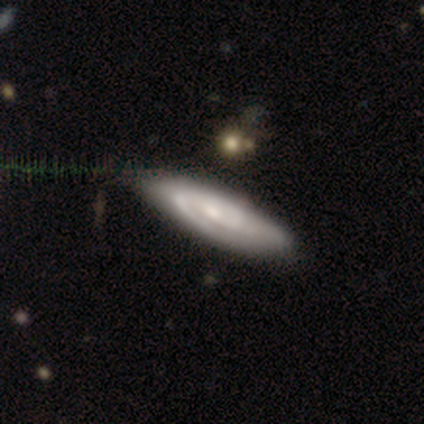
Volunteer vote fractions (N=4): featured or disk 75%, star or artifact 25%, smooth 0%. Down the decision tree: edge-on disk — no (100%); bar — no (67%); spiral arms — yes (100%); spiral arm count — 1 (67%); spiral winding — tight (33%, tied with medium and loose); bulge size — moderate (100%); merging — none (67%).